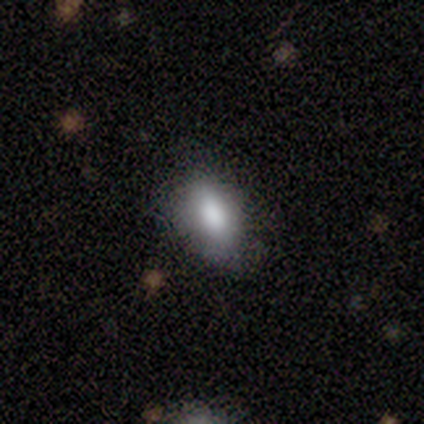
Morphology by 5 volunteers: Smooth or featured? smooth (80%)
How rounded? in between (100%)
Merging? none (75%)